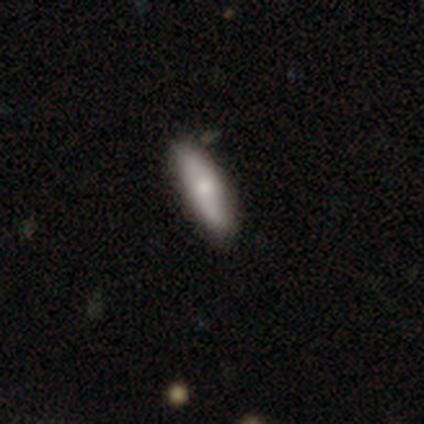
Morphology: type=smooth (100%); roundness=cigar-shaped (60%); merging=none (60%).